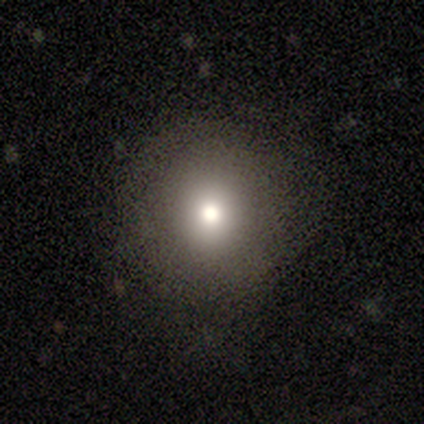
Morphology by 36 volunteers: This is likely a smooth galaxy (69%). How rounded: clearly round (88%). Merging: likely none (79%).